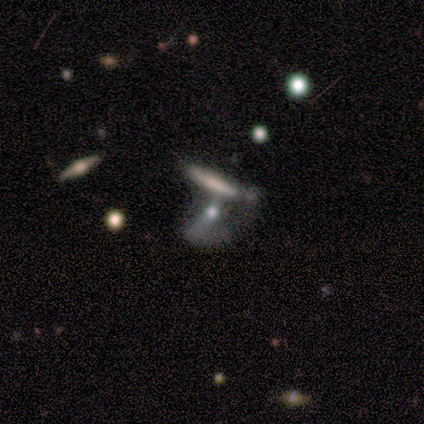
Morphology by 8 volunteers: smooth_or_featured: smooth (p=0.50) [alt: featured or disk p=0.38]
how_rounded: cigar-shaped (p=0.75) [alt: round p=0.25]
merging: merger (p=0.71) [alt: none p=0.29]